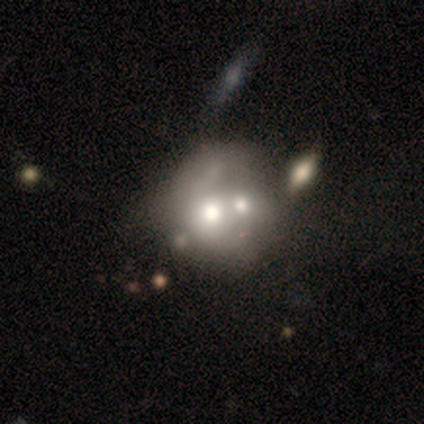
smooth 59%, featured or disk 32%, star or artifact 8%. Down the decision tree: how rounded — round (82%); merging — merger (59%).